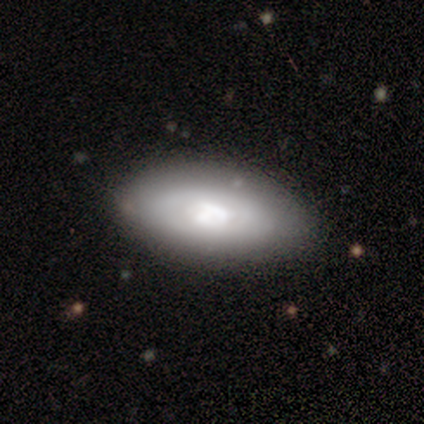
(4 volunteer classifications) Smooth or featured?
  - smooth: 50% * (tied)
  - featured or disk: 50% * (tied)
  - star or artifact: 0%
How rounded?
  - in between: 100% *
  - round: 0%
  - cigar-shaped: 0%
Merging?
  - none: 75% *
  - minor disturbance: 25%
  - major disturbance: 0%
  - merger: 0%